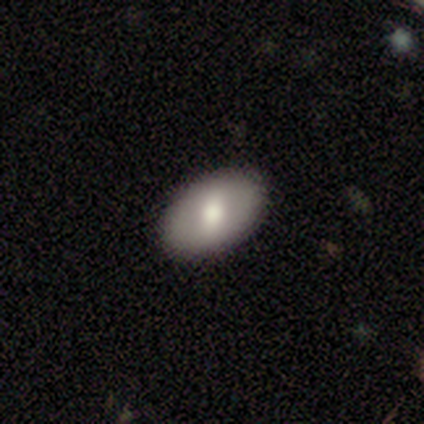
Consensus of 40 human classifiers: smooth_or_featured: smooth (p=0.72) [alt: featured or disk p=0.23]
how_rounded: in between (p=0.93) [alt: round p=0.07]
merging: none (p=0.95) [alt: minor disturbance p=0.05]